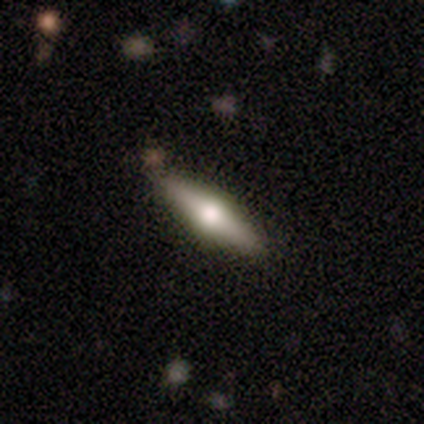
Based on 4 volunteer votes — smooth-or-featured: featured or disk: 100% | smooth: 0% | star or artifact: 0%
  disk-edge-on: yes: 100% | no: 0%
    edge-on-bulge: rounded: 100% | boxy: 0% | none: 0%
  merging: none: 100% | minor disturbance: 0% | major disturbance: 0% | merger: 0%